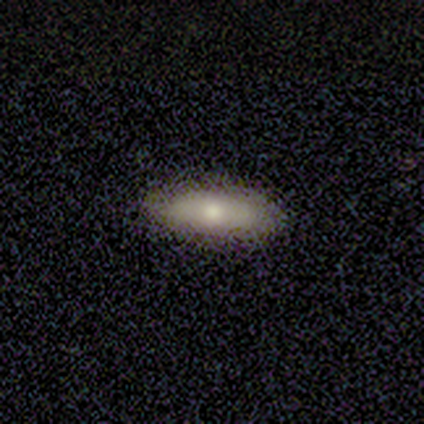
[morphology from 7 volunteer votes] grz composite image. It shows a smooth galaxy with no disk features (71%) that is in between round and cigar-shaped (100%). Merging: none (100%).